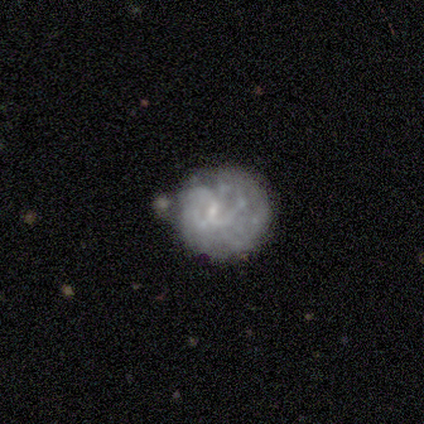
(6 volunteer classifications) This appears to be a featured or disk galaxy (67%) with a weak bar (100%), tight (50%, tied with loose) spiral arms (50%, tied with no) and a small central bulge (100%). Merging: none (50%).